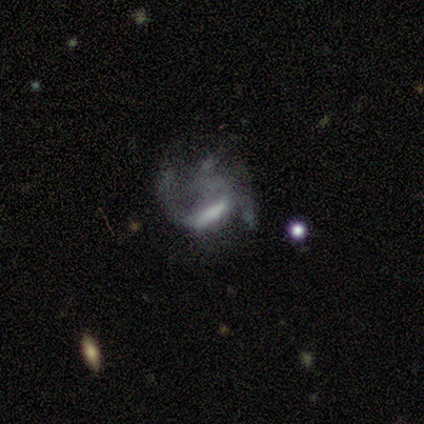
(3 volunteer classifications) A smooth galaxy with no disk features (33%, tied with featured or disk and star or artifact) that is cigar-shaped (100%).

Vote fractions:
- Smooth or featured? smooth: 33% (tied) / featured or disk: 33% (tied) / star or artifact: 33% (tied)
- How rounded? cigar-shaped: 100% / round: 0% / in between: 0%
- Merging? none: 50% (tied) / major disturbance: 50% (tied) / minor disturbance: 0% / merger: 0%